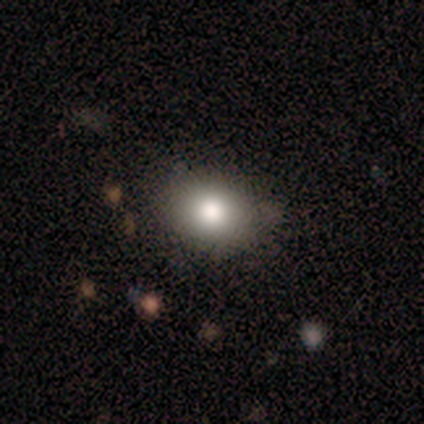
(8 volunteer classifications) A smooth galaxy with no disk features (88%) that is in between round and cigar-shaped (71%).

Vote fractions:
- Smooth or featured? smooth: 88% / featured or disk: 12% / star or artifact: 0%
- How rounded? in between: 71% / round: 29% / cigar-shaped: 0%
- Merging? none: 88% / minor disturbance: 12% / major disturbance: 0% / merger: 0%